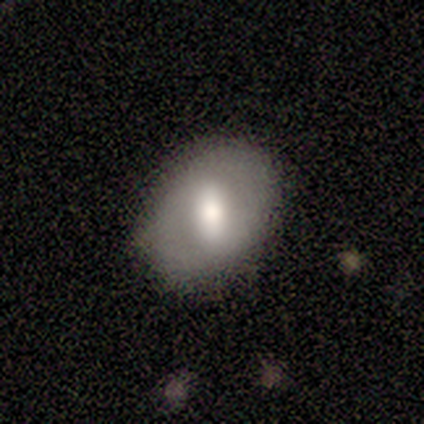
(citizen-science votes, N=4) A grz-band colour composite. It shows a smooth galaxy with no disk features (75%) that is in between round and cigar-shaped (67%). Merging: none (75%).